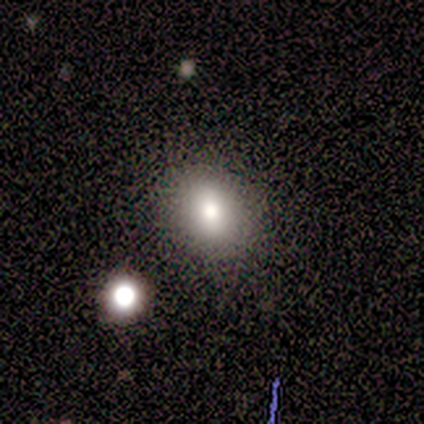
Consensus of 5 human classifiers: smooth_or_featured: smooth (p=1.00)
how_rounded: in between (p=0.80) [alt: round p=0.20]
merging: none (p=1.00)